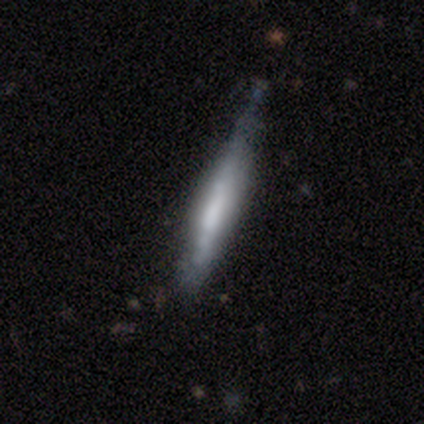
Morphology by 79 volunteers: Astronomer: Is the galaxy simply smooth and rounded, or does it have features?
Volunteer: featured or disk — 56% (runner-up: smooth, 39%).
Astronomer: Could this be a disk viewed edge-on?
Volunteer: yes — 91%.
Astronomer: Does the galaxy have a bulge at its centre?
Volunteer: none — 57% (runner-up: boxy, 35%).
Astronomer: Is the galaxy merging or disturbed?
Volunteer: none — 33% (runner-up: minor disturbance, 28%).